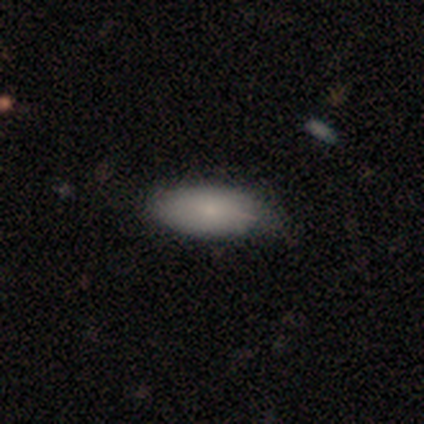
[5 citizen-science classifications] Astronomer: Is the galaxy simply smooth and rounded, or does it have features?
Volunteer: smooth — 60%.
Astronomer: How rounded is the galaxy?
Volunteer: in between — 67%.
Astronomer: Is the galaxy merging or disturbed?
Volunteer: none — 75%.